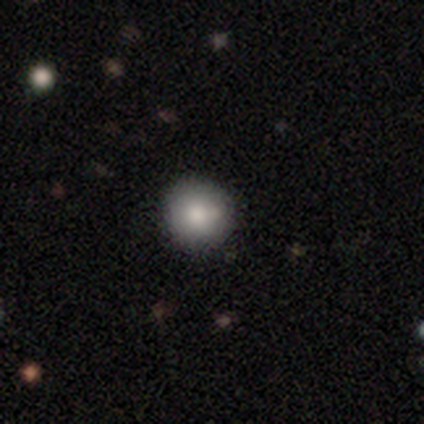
A smooth galaxy with no disk features (67%) that is round (100%). Merging: none (100%).